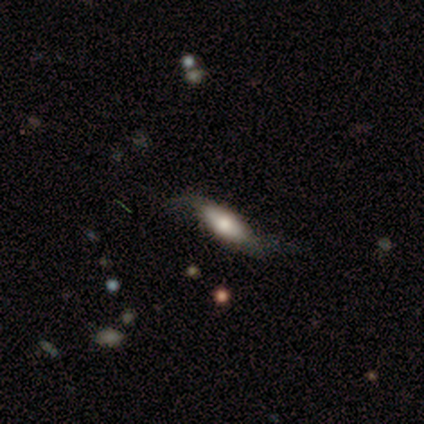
This appears to be a smooth galaxy with no disk features (45%, tied with featured or disk) that is in between round and cigar-shaped (80%). Merging: none (50%, tied with minor disturbance).